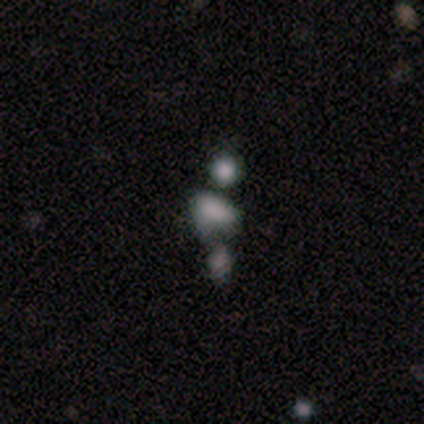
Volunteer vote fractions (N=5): smooth-or-featured: smooth: 60% | featured or disk: 20% | star or artifact: 20%
  how-rounded: in between: 100% | round: 0% | cigar-shaped: 0%
  merging: minor disturbance: 50% (tied) | merger: 50% (tied) | none: 0% | major disturbance: 0%